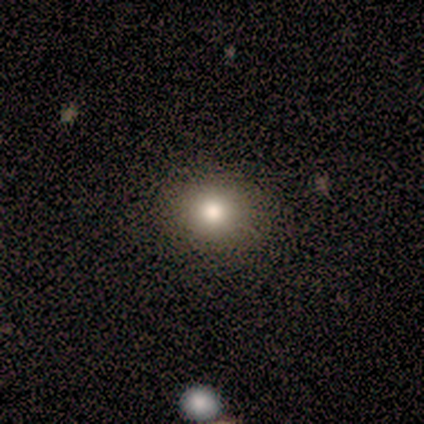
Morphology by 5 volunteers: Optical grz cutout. It shows a smooth galaxy with no disk features (100%) that is round (60%). Merging: none (80%).